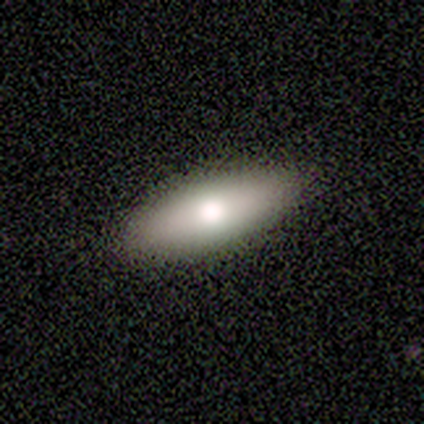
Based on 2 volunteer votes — Smooth or featured? 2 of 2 (100%) said smooth. How rounded? 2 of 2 (100%) said in between. Merging? 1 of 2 (50%, tied with minor disturbance) said none.